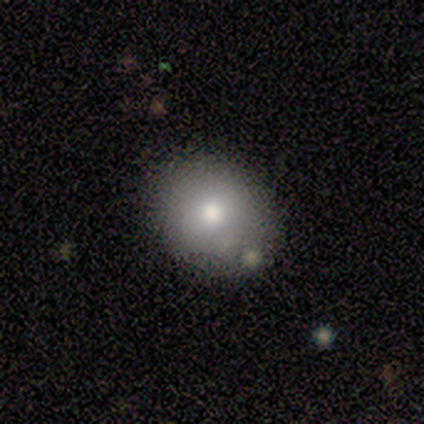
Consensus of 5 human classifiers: Smooth or featured? 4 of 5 (80%) said smooth. How rounded? 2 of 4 (50%, tied with in between) said round. Merging? 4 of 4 (100%) said none.